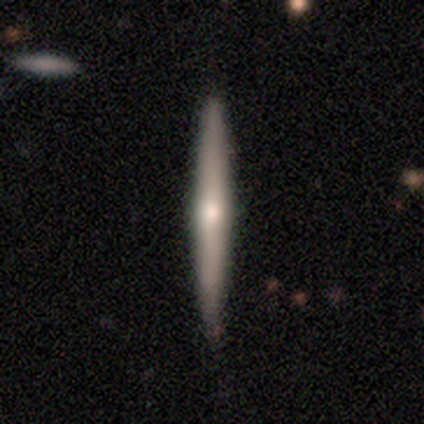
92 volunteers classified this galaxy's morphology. featured or disk 62%, smooth 36%, star or artifact 2%. Down the decision tree: edge-on disk — yes (98%); edge-on bulge — rounded (80%); merging — none (91%).